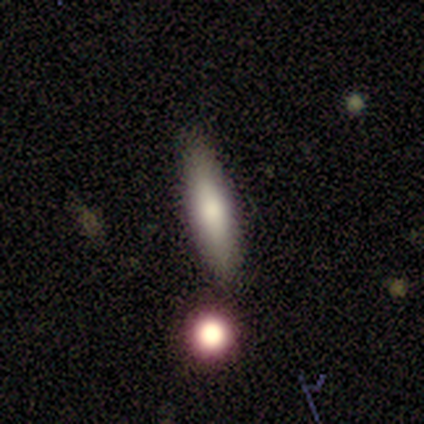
smooth 67%, featured or disk 33%, star or artifact 0%. Down the decision tree: how rounded — cigar-shaped (100%); merging — none (83%).